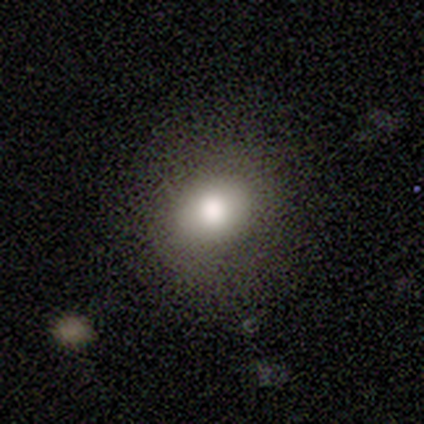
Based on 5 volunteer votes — smooth-or-featured: smooth: 80% | star or artifact: 20% | featured or disk: 0%
  how-rounded: round: 75% | in between: 25% | cigar-shaped: 0%
  merging: none: 75% | minor disturbance: 25% | major disturbance: 0% | merger: 0%